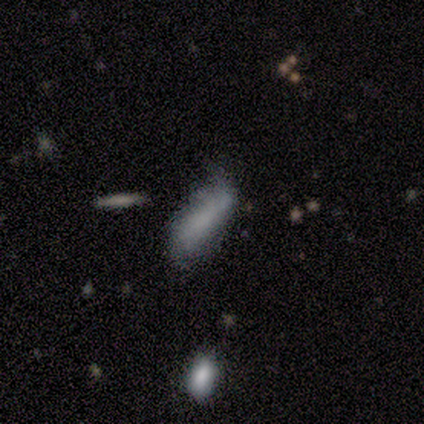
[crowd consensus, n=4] Smooth or featured?
  - smooth: 50% * (tied)
  - featured or disk: 50% * (tied)
  - star or artifact: 0%
How rounded?
  - cigar-shaped: 100% *
  - round: 0%
  - in between: 0%
Merging?
  - none: 50% * (tied)
  - minor disturbance: 50% * (tied)
  - major disturbance: 0%
  - merger: 0%